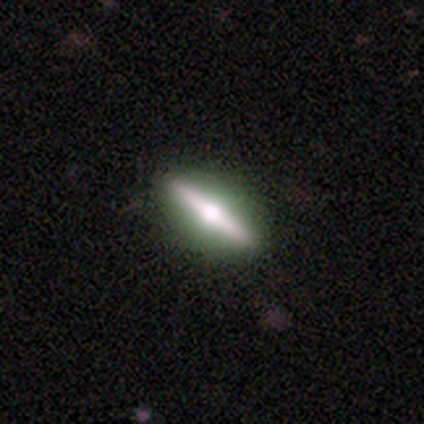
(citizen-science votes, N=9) Smooth or featured? 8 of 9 (89%) said featured or disk. Edge-on disk? 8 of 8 (100%) said yes. Edge-on bulge? 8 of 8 (100%) said rounded. Merging? 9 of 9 (100%) said none.